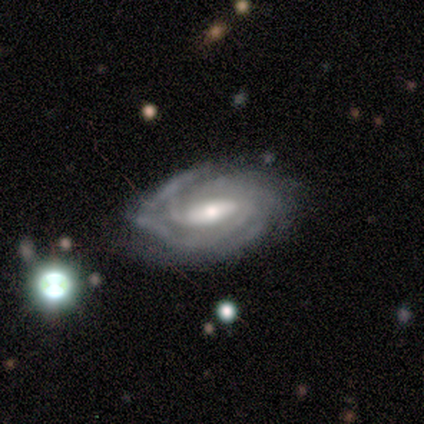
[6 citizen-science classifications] Smooth or featured: featured or disk — 100%
Edge-on disk: no — 83% (yes — 17%)
Bar: strong — 40% (tied with weak — 40%)
Spiral arms: yes — 100%
Spiral winding: tight — 80% (medium — 20%)
Spiral arm count: 3 — 40% (4 — 20%)
Bulge size: small — 60% (large — 20%)
Merging: none — 83% (minor disturbance — 17%)